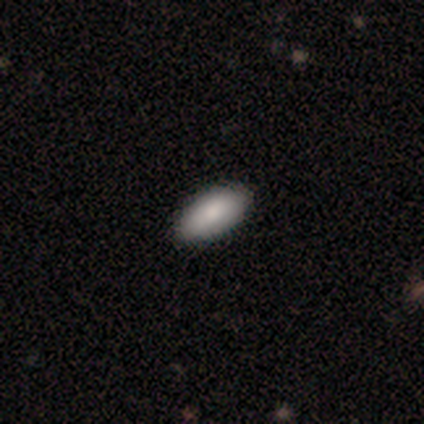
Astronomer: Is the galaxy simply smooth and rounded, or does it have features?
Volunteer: smooth — 100%.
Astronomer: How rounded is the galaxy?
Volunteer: in between — 75%.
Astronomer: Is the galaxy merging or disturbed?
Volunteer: none — 100%.